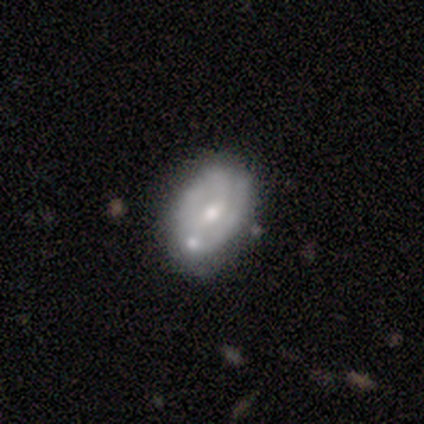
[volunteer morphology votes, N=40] Smooth or featured: featured or disk — 65% (smooth — 30%)
Edge-on disk: no — 85% (yes — 15%)
Bar: weak — 64% (no — 32%)
Spiral arms: yes — 59% (no — 41%)
Spiral winding: medium — 69% (tight — 23%)
Spiral arm count: 2 — 69% (can't tell — 23%)
Bulge size: moderate — 59% (small — 36%)
Merging: none — 53% (minor disturbance — 29%)